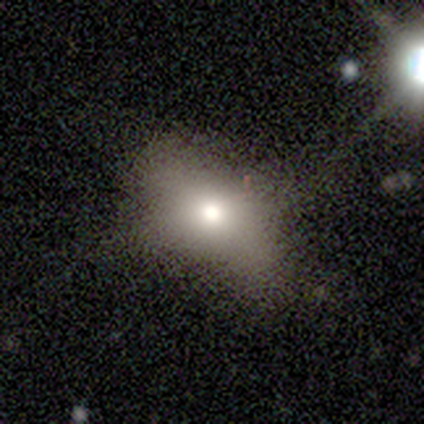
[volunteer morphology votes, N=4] This appears to be a smooth galaxy with no disk features (100%) that is in between round and cigar-shaped (75%). Merging: none (50%).